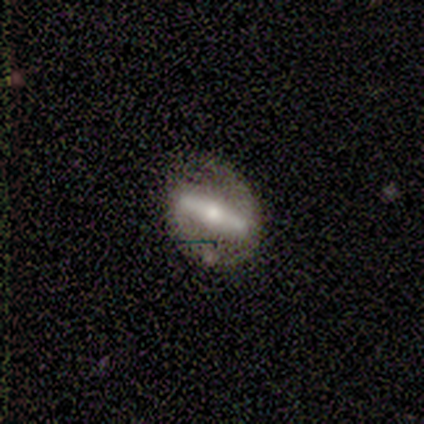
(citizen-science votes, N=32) Smooth or featured? 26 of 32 (81%) said featured or disk. Edge-on disk? 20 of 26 (77%) said no. Bar? 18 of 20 (90%) said strong. Spiral arms? 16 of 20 (80%) said yes. Spiral winding? 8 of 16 (50%) said tight. Spiral arm count? 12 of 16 (75%) said 2. Bulge size? 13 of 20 (65%) said moderate. Merging? 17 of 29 (59%) said none.